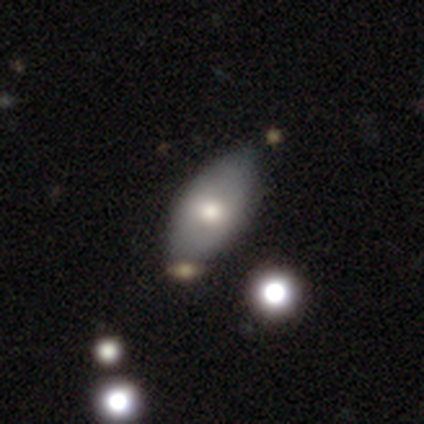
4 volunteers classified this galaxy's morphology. Volunteers were most divided on "merging": none: 50%, major disturbance: 25%, merger: 25%, minor disturbance: 0%. More confident: how rounded — in between (100%); smooth or featured — smooth (75%).